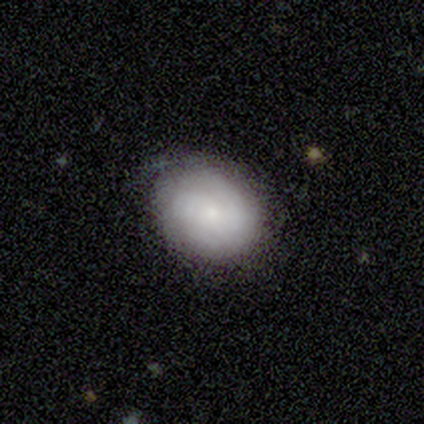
Morphology: type=smooth (50%, tied with featured or disk); roundness=round (100%); merging=none (75%).